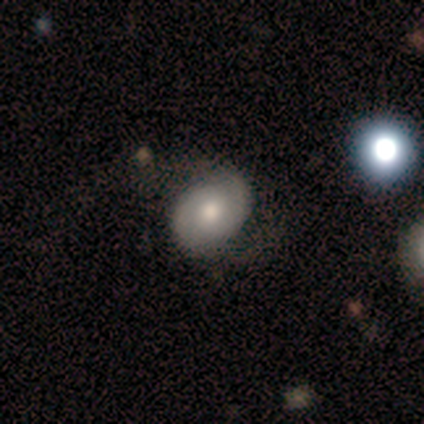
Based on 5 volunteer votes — This appears to be a smooth galaxy with no disk features (40%, tied with featured or disk) that is round (50%, tied with in between). Merging: none (75%).